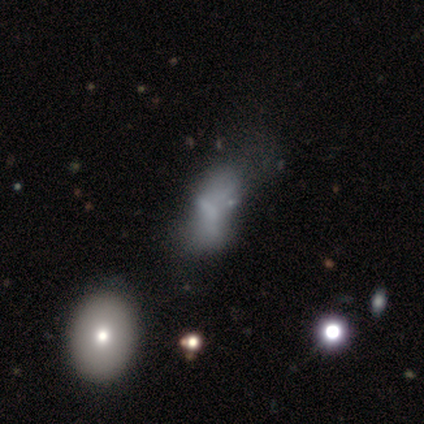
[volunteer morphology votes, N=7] Smooth or featured? featured or disk (43%)
Edge-on disk? no (100%)
Bar? no (100%)
Spiral arms? no (100%)
Bulge size? none (100%)
Merging? major disturbance (60%)